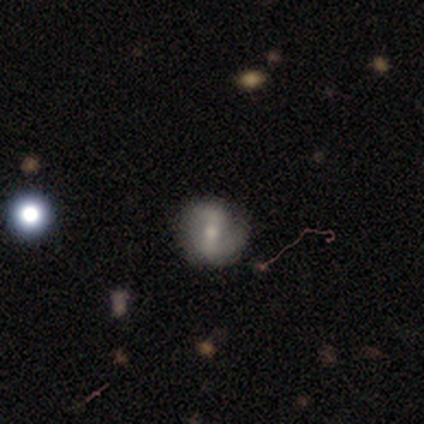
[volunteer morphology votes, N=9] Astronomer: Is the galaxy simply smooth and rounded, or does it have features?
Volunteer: featured or disk — 67%.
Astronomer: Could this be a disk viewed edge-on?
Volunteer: no — 100%.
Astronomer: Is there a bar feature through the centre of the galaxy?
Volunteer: strong — 67%.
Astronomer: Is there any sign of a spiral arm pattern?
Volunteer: yes — 83%.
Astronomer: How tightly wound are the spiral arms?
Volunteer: loose — 80%.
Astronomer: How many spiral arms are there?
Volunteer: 2 — 100%.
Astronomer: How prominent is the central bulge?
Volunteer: moderate — 50%, tied with small at 50%.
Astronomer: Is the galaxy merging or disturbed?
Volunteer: none — 100%.